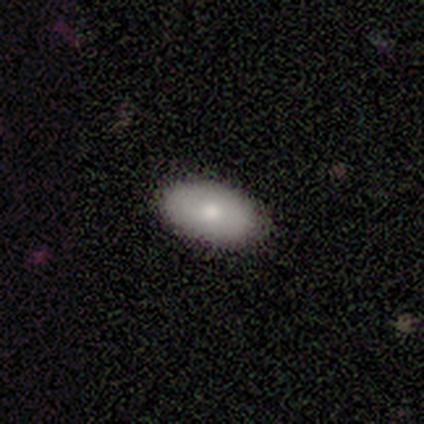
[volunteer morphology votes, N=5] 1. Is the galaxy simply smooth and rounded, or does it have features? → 100% smooth, 0% featured or disk, 0% star or artifact.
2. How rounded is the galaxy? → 100% in between, 0% round, 0% cigar-shaped.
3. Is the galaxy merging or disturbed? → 100% none, 0% minor disturbance, 0% major disturbance, 0% merger.